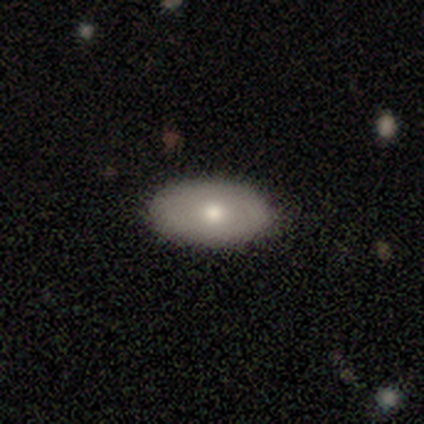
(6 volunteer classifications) Smooth or featured?
  - smooth: 83% *
  - featured or disk: 17%
  - star or artifact: 0%
How rounded?
  - in between: 100% *
  - round: 0%
  - cigar-shaped: 0%
Merging?
  - none: 100% *
  - minor disturbance: 0%
  - major disturbance: 0%
  - merger: 0%